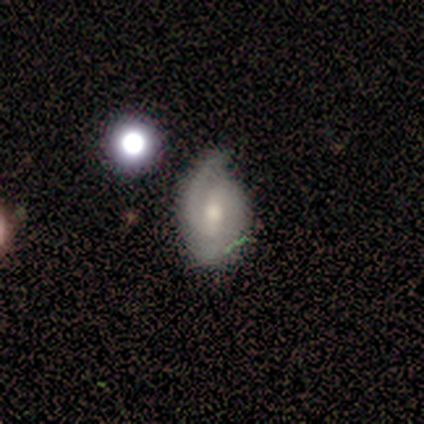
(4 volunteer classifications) Volunteers were most divided on "merging" (2-way tie): none: 50%, minor disturbance: 50%, major disturbance: 0%, merger: 0%. More confident: smooth or featured — featured or disk (100%); spiral arms — yes (100%); spiral arm count — 2 (100%); edge-on disk — no (75%); bar — weak (67%); spiral winding — medium (67%); bulge size — moderate (67%).